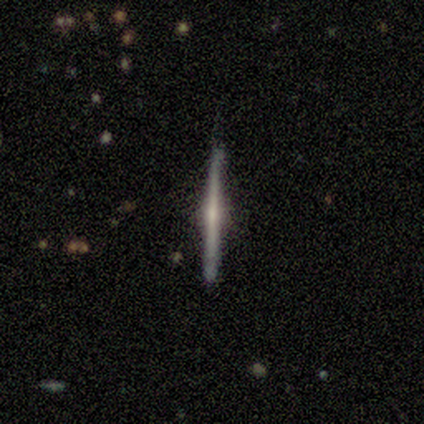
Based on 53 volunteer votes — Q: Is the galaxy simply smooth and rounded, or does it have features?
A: featured or disk — 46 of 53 (87%).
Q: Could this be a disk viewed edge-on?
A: yes — 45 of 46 (98%).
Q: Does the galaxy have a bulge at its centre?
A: rounded — 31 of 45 (69%).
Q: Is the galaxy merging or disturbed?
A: none — 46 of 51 (90%).